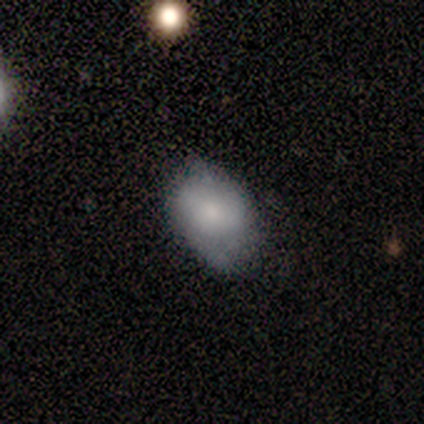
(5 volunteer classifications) Morphology: type=smooth (60%); roundness=in between (100%); merging=none (75%).